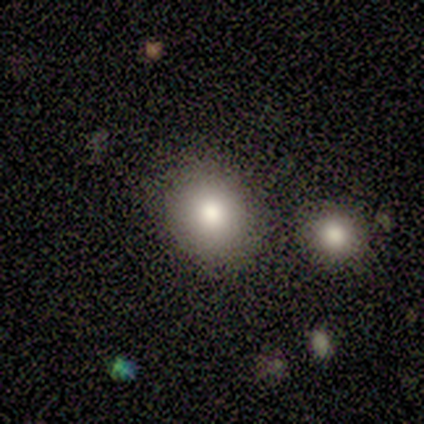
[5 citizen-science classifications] This appears to be a smooth galaxy with no disk features (100%) that is round (80%). Merging: none (60%).